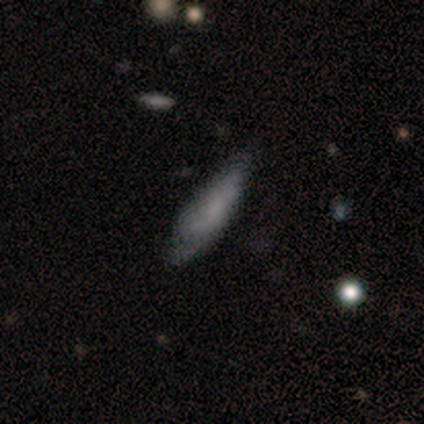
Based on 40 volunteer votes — A smooth galaxy with no disk features (70%) that is cigar-shaped (54%). Merging: none (56%).